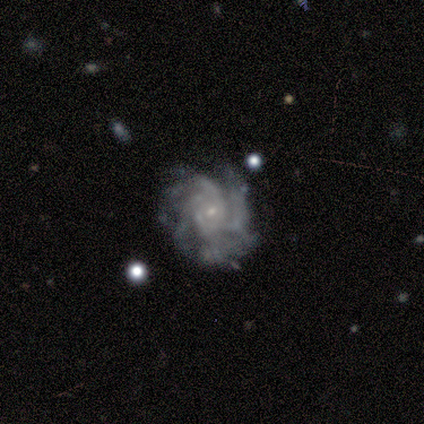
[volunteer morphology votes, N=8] Overall: featured or disk (88%). Edge-on disk: no (100%). Bar: no (86%). Spiral arms: yes (100%). Spiral arm count: more than 4 (57%; can't tell 29%). Spiral winding: medium (43%; tight 29%). Bulge size: small (100%). Merging: none (50%, tied with minor disturbance).